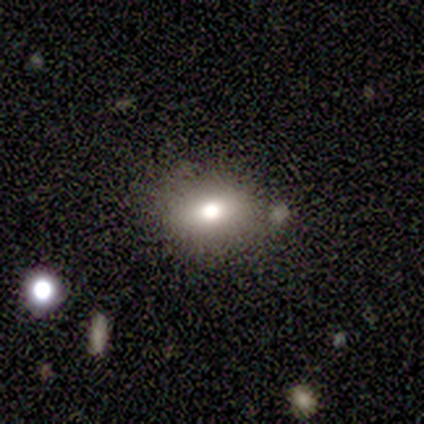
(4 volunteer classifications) Smooth or featured: smooth — 50% (tied with featured or disk — 50%)
How rounded: round — 50% (tied with in between — 50%)
Merging: none — 100%